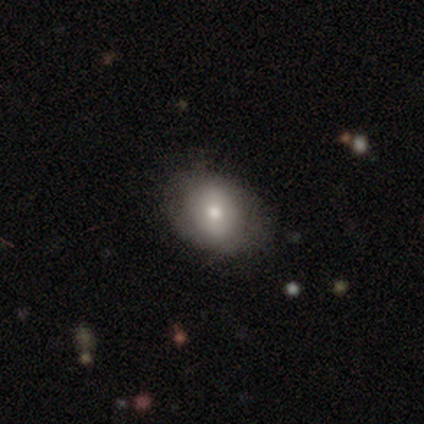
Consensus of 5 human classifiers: Q: Smooth or featured?
A: smooth (100%)
Q: How rounded?
A: round (60%); runner-up: in between (40%)
Q: Merging?
A: none (100%)